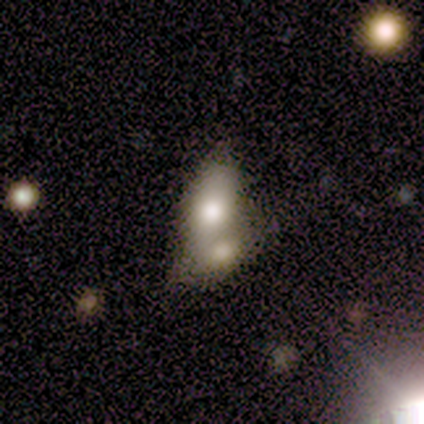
This appears to be a smooth galaxy with no disk features (80%) that is in between round and cigar-shaped (75%). Merging: merger (60%).